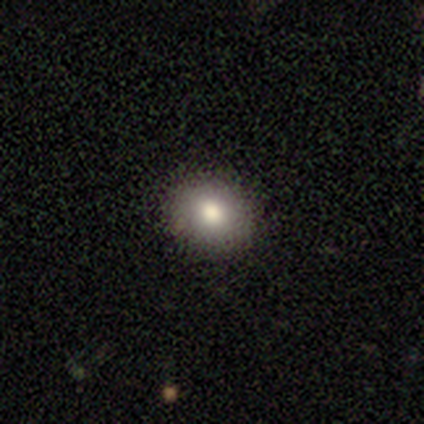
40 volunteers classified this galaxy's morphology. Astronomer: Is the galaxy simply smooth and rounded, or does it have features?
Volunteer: smooth — 82%.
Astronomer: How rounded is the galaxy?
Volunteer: round — 67%.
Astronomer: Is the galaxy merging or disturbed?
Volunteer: none — 89%.